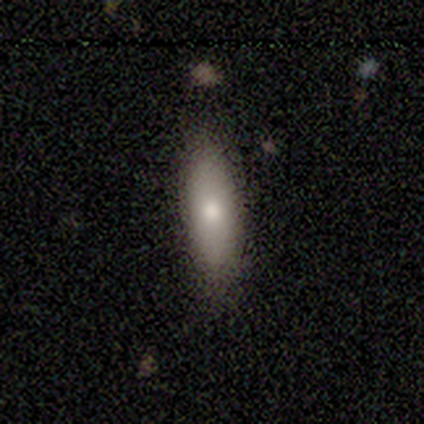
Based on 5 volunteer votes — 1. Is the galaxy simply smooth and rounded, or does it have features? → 60% smooth, 20% featured or disk, 20% star or artifact.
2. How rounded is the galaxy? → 67% in between, 33% cigar-shaped, 0% round.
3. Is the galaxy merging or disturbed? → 75% none, 25% minor disturbance, 0% major disturbance, 0% merger.